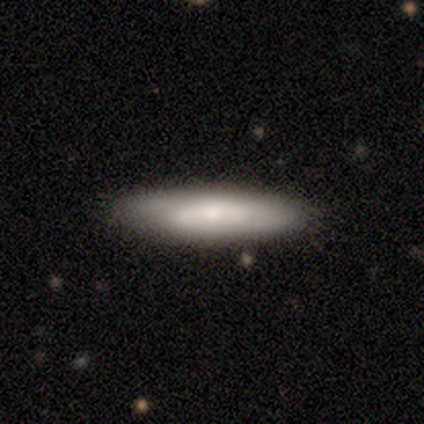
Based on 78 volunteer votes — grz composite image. It shows a smooth galaxy with no disk features (65%) that is cigar-shaped (69%). Merging: none (44%).